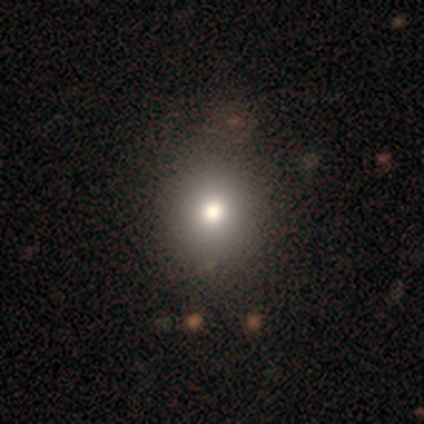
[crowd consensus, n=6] Volunteers were most divided on "how rounded" (2-way tie): round: 50%, in between: 50%, cigar-shaped: 0%. More confident: merging — none (80%); smooth or featured — smooth (67%).